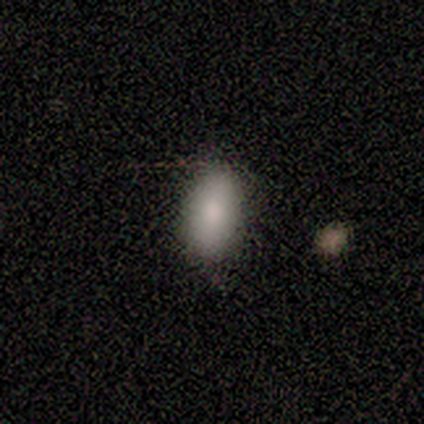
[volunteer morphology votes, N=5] smooth-or-featured: smooth: 100% | featured or disk: 0% | star or artifact: 0%
  how-rounded: in between: 80% | round: 20% | cigar-shaped: 0%
  merging: none: 100% | minor disturbance: 0% | major disturbance: 0% | merger: 0%